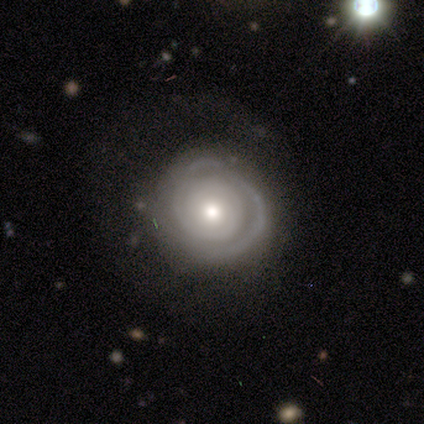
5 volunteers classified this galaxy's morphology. featured or disk 100%, smooth 0%, star or artifact 0%. Down the decision tree: edge-on disk — no (100%); bar — no (60%); spiral arms — yes (100%); spiral arm count — 1 (40%); spiral winding — tight (80%); bulge size — moderate (80%); merging — none (100%).